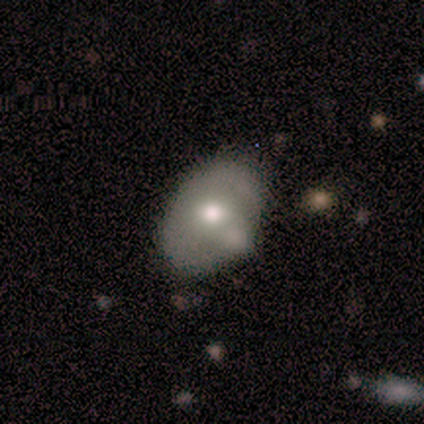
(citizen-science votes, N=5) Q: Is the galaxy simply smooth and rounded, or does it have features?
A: featured or disk — 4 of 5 (80%).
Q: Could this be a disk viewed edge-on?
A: no — 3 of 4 (75%).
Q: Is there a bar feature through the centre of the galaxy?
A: no — 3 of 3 (100%).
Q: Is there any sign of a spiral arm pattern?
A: no — 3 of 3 (100%).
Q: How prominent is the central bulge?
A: moderate — 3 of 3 (100%).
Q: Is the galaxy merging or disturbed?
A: minor disturbance — 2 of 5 (40%, tied with merger).